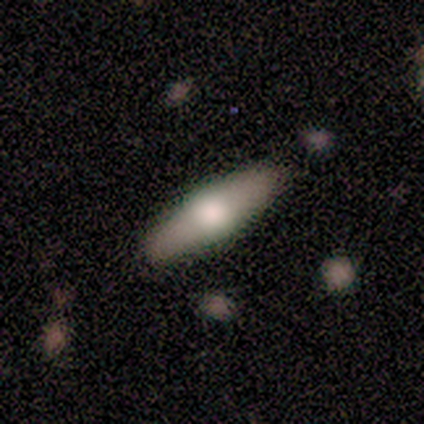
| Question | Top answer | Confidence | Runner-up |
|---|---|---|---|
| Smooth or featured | smooth | 60% | featured or disk (40%) |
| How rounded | cigar-shaped | 67% | in between (33%) |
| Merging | none | 100% | — |